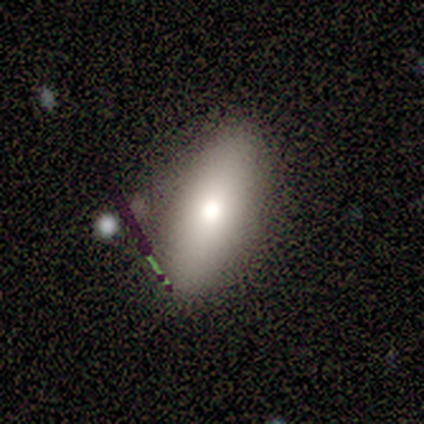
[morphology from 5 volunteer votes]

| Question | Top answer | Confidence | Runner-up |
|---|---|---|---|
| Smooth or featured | smooth | 60% | featured or disk (20%) |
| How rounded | in between | 100% | — |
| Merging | none | 75% | minor disturbance (25%) |